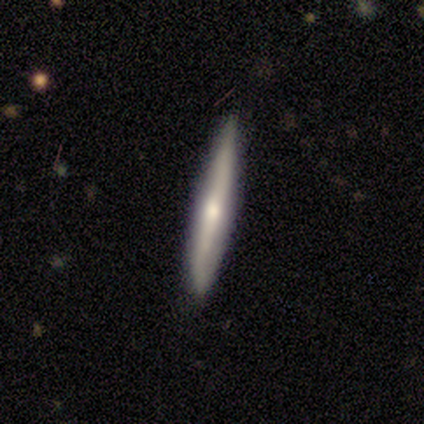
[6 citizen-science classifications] smooth_or_featured: featured or disk (p=1.00)
disk_edge_on: yes (p=1.00)
edge_on_bulge: rounded (p=0.67) [alt: none p=0.33]
merging: none (p=0.83) [alt: minor disturbance p=0.17]